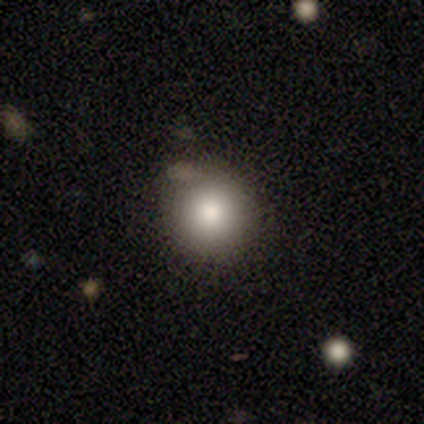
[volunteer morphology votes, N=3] Smooth or featured? 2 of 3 (67%) said smooth. How rounded? 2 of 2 (100%) said round. Merging? 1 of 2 (50%, tied with minor disturbance) said none.